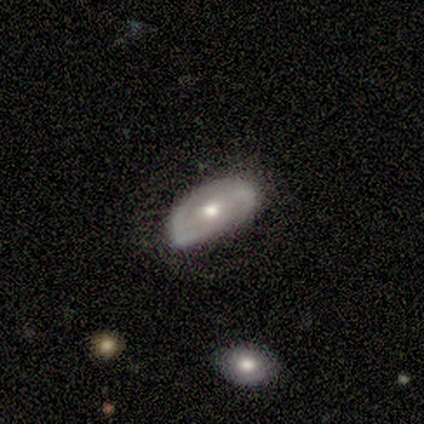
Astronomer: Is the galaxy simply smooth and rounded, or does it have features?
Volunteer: smooth — 50%.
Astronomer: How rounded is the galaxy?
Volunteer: in between — 100%.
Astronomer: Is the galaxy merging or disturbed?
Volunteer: none — 100%.